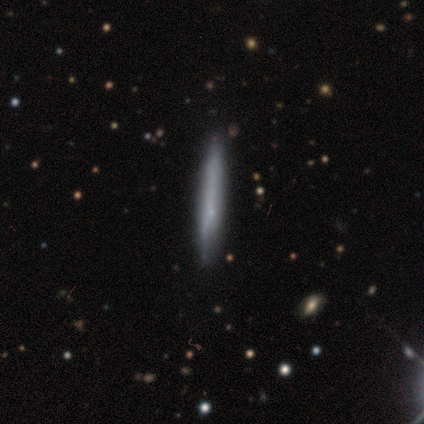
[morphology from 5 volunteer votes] This appears to be a smooth galaxy with no disk features (100%) that is cigar-shaped (100%). Merging: none (100%).